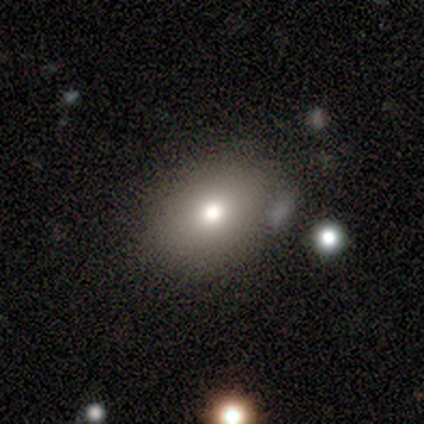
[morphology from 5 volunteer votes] type=smooth (80%); roundness=in between (100%); merging=none (75%).